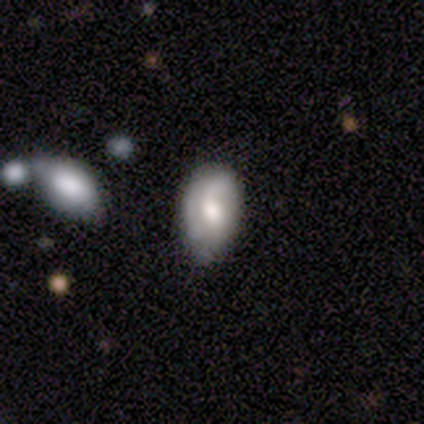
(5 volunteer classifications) Q: Smooth or featured?
A: smooth (40%); tied with: featured or disk (40%)
Q: How rounded?
A: in between (100%)
Q: Merging?
A: none (50%); tied with: minor disturbance (50%)